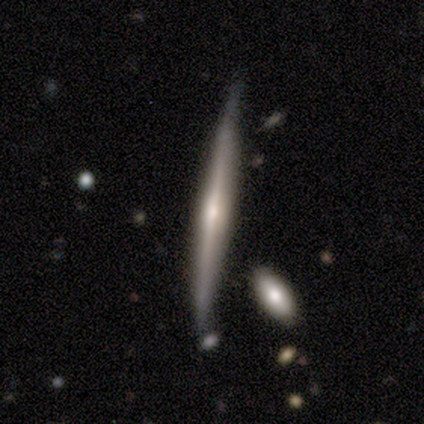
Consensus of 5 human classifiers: Smooth or featured? 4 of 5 (80%) said featured or disk. Edge-on disk? 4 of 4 (100%) said yes. Edge-on bulge? 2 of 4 (50%) said rounded. Merging? 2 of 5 (40%, tied with minor disturbance) said none.